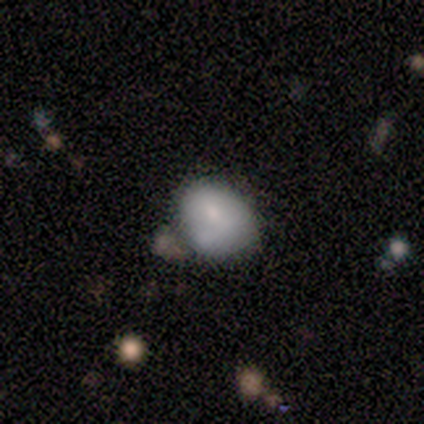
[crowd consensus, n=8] smooth_or_featured: smooth (p=0.62) [alt: featured or disk p=0.25]
how_rounded: round (p=0.60) [alt: in between p=0.40]
merging: none (p=0.57) [alt: minor disturbance p=0.29]